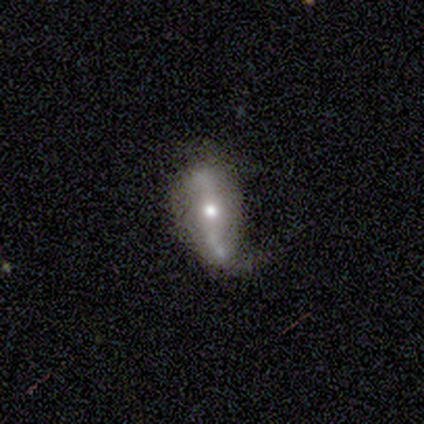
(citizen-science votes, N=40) A featured or disk galaxy (90%) with a strong bar (48%), 2 (96%) loose (78%) spiral arms (74%) and a moderate central bulge (74%).

Vote fractions:
- Smooth or featured? featured or disk: 90% / star or artifact: 8% / smooth: 2%
- Edge-on disk? no: 86% / yes: 14%
- Bar? strong: 48% / no: 32% / weak: 19%
- Spiral arms? yes: 74% / no: 26%
- Spiral winding? loose: 78% / medium: 17% / tight: 4%
- Spiral arm count? 2: 96% / 1: 4% / 3: 0% / 4: 0% / more than 4: 0% / can't tell: 0%
- Bulge size? moderate: 74% / large: 13% / small: 13% / dominant: 0% / none: 0%
- Merging? none: 41% / minor disturbance: 38% / major disturbance: 22% / merger: 0%